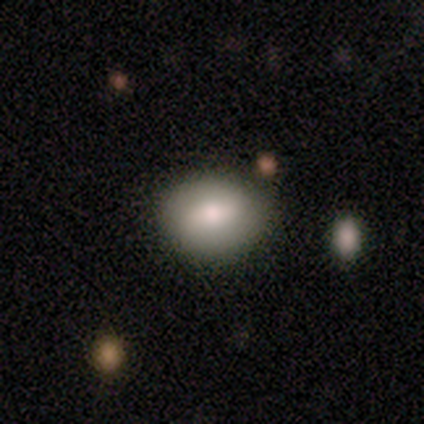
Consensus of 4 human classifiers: Smooth or featured: smooth — 75% (featured or disk — 25%)
How rounded: round — 67% (in between — 33%)
Merging: none — 75% (minor disturbance — 25%)